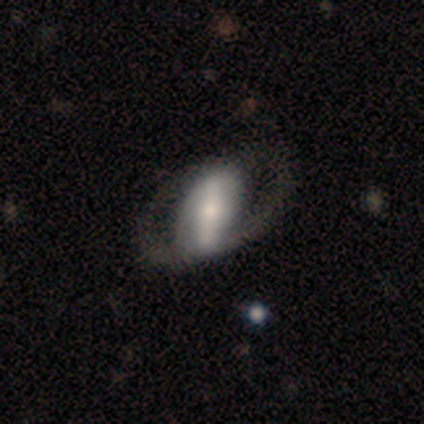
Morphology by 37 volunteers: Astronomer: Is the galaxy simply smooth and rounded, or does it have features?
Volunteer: featured or disk — 76%.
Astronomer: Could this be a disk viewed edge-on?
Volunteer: no — 93%.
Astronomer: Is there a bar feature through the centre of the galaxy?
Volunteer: strong — 81%.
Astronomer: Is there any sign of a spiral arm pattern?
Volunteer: yes — 54% (runner-up: no, 46%).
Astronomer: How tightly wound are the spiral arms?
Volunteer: loose — 57%.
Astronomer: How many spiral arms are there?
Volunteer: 2 — 71%.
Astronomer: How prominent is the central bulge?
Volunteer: small — 42% (runner-up: moderate, 31%).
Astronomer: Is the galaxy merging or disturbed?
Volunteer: none — 26% (runner-up: major disturbance, 17%).